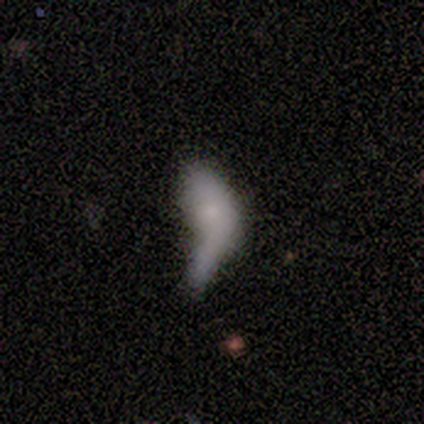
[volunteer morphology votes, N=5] A smooth galaxy with no disk features (60%) that is in between round and cigar-shaped (100%). Merging: major disturbance (40%, tied with merger).